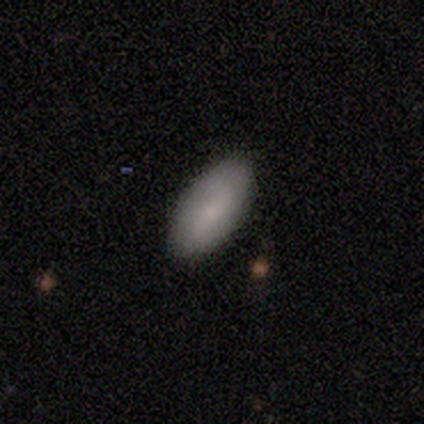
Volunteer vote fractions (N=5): Morphology: type=smooth (60%); roundness=in between (100%); merging=none (100%).